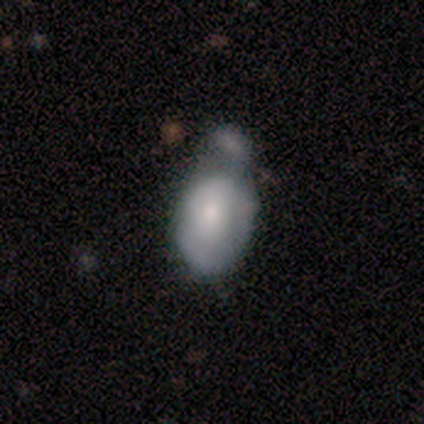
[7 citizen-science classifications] Smooth or featured? smooth (71%)
How rounded? in between (80%)
Merging? minor disturbance (43%)